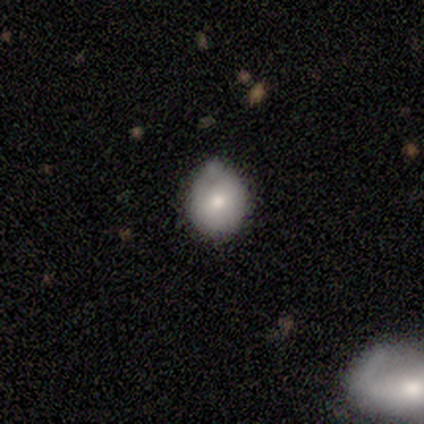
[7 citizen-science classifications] Smooth or featured: smooth — 100%
How rounded: round — 86% (in between — 14%)
Merging: none — 43% (tied with minor disturbance — 43%)